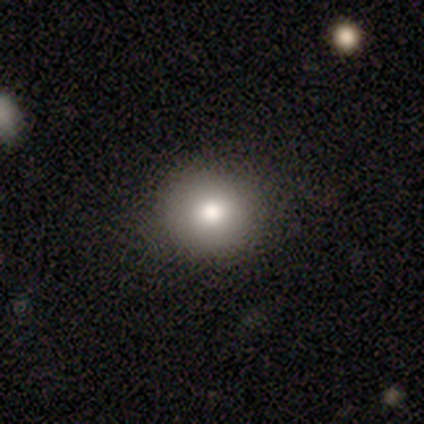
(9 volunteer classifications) Volunteers were most divided on "merging": none: 75%, minor disturbance: 25%, major disturbance: 0%, merger: 0%. More confident: how rounded — round (100%); smooth or featured — smooth (78%).